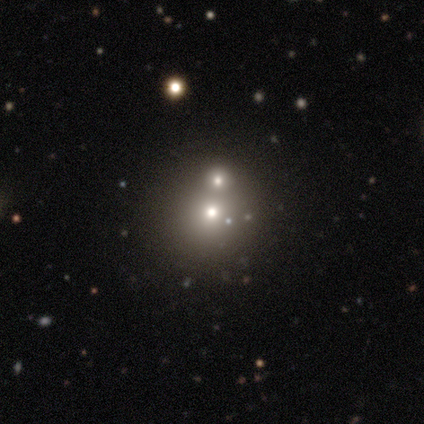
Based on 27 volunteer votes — smooth 59%, star or artifact 26%, featured or disk 15%. Down the decision tree: how rounded — round (94%); merging — merger (55%).